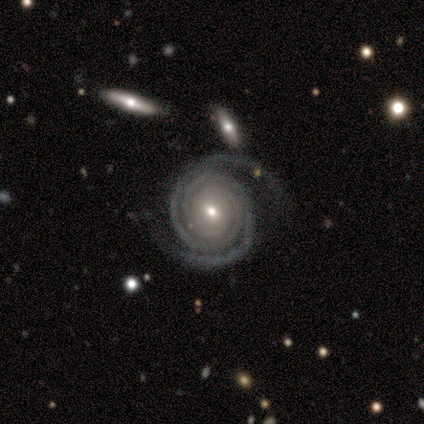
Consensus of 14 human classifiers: Smooth or featured? 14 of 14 (100%) said featured or disk. Edge-on disk? 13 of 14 (93%) said no. Bar? 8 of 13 (62%) said no. Spiral arms? 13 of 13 (100%) said yes. Spiral winding? 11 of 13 (85%) said tight. Spiral arm count? 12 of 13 (92%) said 2. Bulge size? 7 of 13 (54%) said moderate. Merging? 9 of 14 (64%) said none.